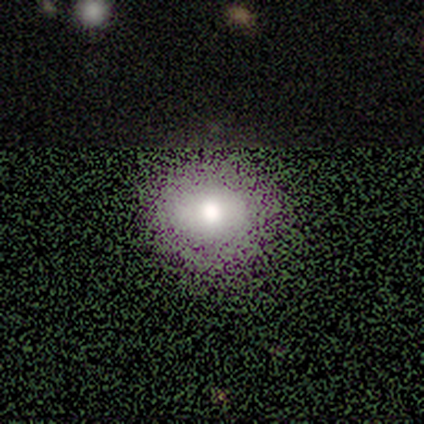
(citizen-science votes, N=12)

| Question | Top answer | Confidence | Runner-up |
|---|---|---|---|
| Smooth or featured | smooth | 75% | featured or disk (17%) |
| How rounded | round | 89% | in between (11%) |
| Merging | none | 64% | major disturbance (27%) |